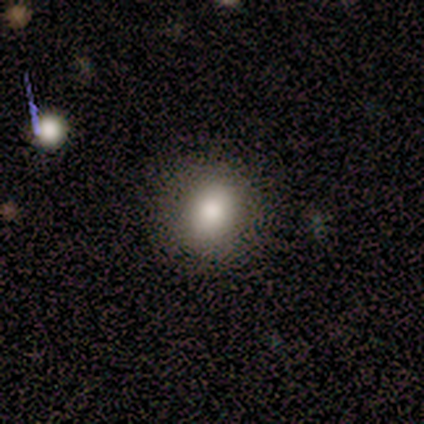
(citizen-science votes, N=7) smooth 86%, featured or disk 14%, star or artifact 0%. Down the decision tree: how rounded — round (67%); merging — none (86%).